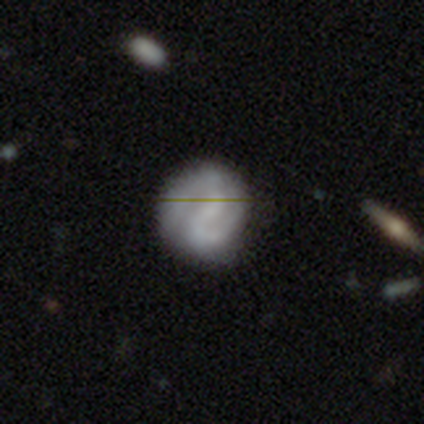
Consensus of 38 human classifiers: This is likely a featured or disk galaxy (66%). It is clearly not viewed edge-on (92%). Bar: likely weak (70%). Spiral arm pattern: clearly yes (96%). Spiral arm count: clearly 2 (91%). Spiral winding: possibly tight (45%). Central bulge: likely none (70%). Merging: likely none (69%).